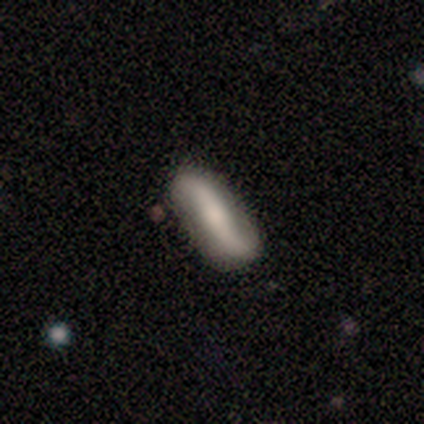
This is clearly a featured or disk galaxy (80%). It is likely not viewed edge-on (75%). Bar: clearly strong (100%). Spiral arm pattern: clearly yes (100%). Spiral arm count: clearly 2 (100%). Spiral winding: clearly loose (100%). Central bulge: marginally dominant (33%, tied with moderate and small). Merging: clearly none (80%).